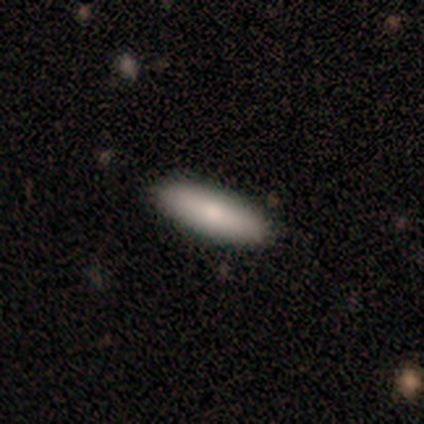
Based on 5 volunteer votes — Volunteers were most divided on "how rounded": in between: 67%, cigar-shaped: 33%, round: 0%. More confident: merging — none (100%); smooth or featured — smooth (60%).